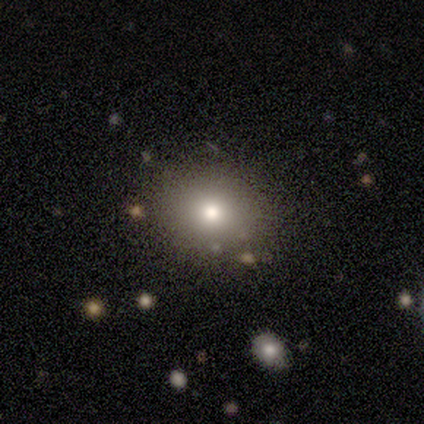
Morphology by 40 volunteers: A smooth galaxy with no disk features (75%) that is round (70%). Merging: none (69%).